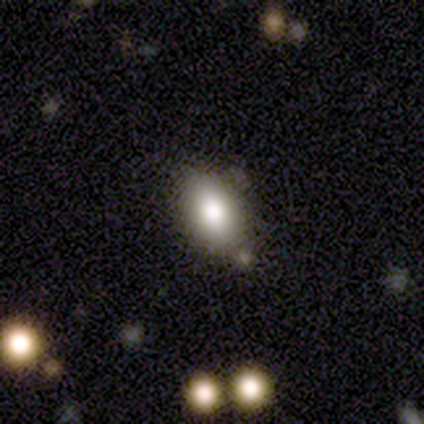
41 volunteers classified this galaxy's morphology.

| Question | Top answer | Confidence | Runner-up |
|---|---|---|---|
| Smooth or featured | smooth | 73% | star or artifact (17%) |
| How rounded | in between | 97% | round (3%) |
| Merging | none | 65% | minor disturbance (18%) |